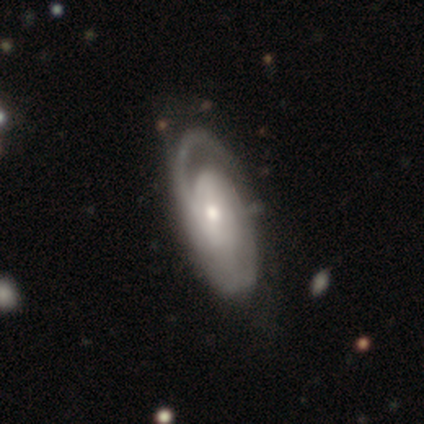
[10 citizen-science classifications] Smooth or featured?
  - featured or disk: 100% *
  - smooth: 0%
  - star or artifact: 0%
Edge-on disk?
  - no: 90% *
  - yes: 10%
Bar?
  - no: 67% *
  - weak: 22%
  - strong: 11%
Spiral arms?
  - yes: 67% *
  - no: 33%
Spiral winding?
  - tight: 50% *
  - loose: 33%
  - medium: 17%
Spiral arm count?
  - 2: 50% *
  - 1: 17%
  - 3: 17%
  - can't tell: 17%
  - 4: 0%
  - more than 4: 0%
Bulge size?
  - moderate: 56% *
  - small: 33%
  - large: 11%
  - dominant: 0%
  - none: 0%
Merging?
  - none: 70% *
  - minor disturbance: 20%
  - major disturbance: 10%
  - merger: 0%